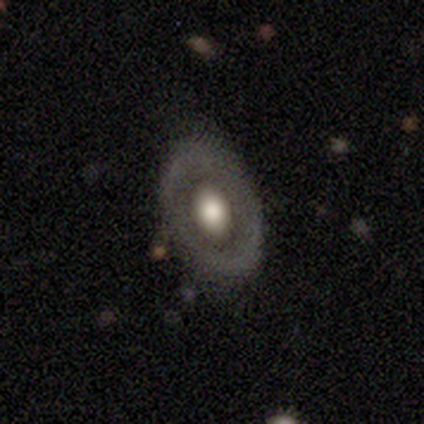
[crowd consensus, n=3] featured or disk 67%, smooth 33%, star or artifact 0%. Down the decision tree: edge-on disk — yes (50%, tied with no); edge-on bulge — rounded (100%); merging — none (67%).